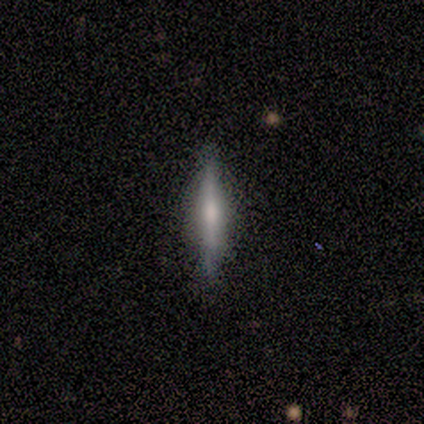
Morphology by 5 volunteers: A smooth galaxy with no disk features (60%) that is cigar-shaped (100%). Merging: none (100%).